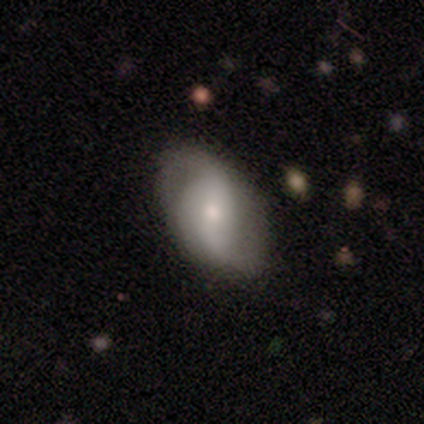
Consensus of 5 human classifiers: This appears to be a featured or disk galaxy (80%) with a strong bar (50%), 3 (75%) medium (75%) spiral arms (100%) and a moderate central bulge (50%). Merging: none (60%).